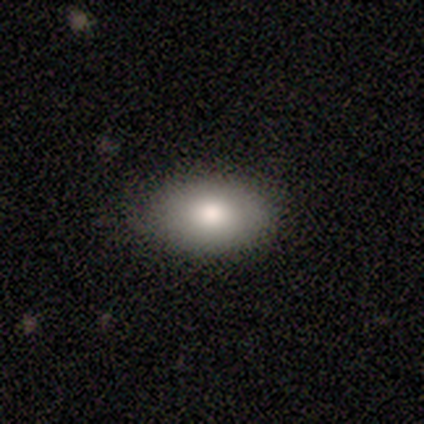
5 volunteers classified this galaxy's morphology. Volunteers were most divided on "how rounded": in between: 75%, round: 25%, cigar-shaped: 0%. More confident: merging — none (100%); smooth or featured — smooth (80%).